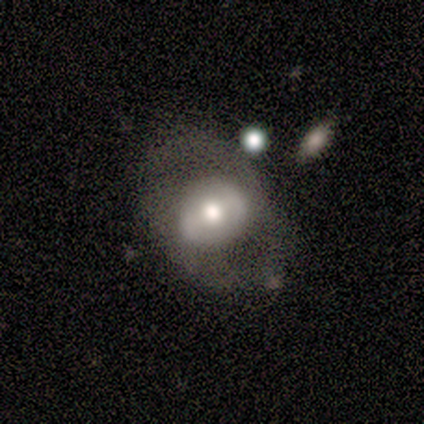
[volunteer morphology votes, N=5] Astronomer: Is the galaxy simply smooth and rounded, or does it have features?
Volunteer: featured or disk — 100%.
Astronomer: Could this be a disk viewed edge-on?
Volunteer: no — 100%.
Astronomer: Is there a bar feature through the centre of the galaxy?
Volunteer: weak — 40%, tied with no at 40%.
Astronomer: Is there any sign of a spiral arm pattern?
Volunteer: yes — 60% (runner-up: no, 40%).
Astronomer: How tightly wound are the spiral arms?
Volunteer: medium — 100%.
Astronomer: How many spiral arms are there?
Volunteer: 2 — 100%.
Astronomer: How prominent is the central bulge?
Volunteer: moderate — 100%.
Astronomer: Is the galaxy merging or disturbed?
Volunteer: none — 80%.